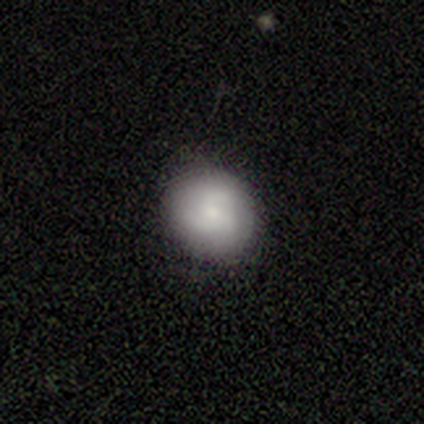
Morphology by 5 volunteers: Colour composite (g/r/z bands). It shows a smooth galaxy with no disk features (60%) that is round (100%). Merging: none (100%).